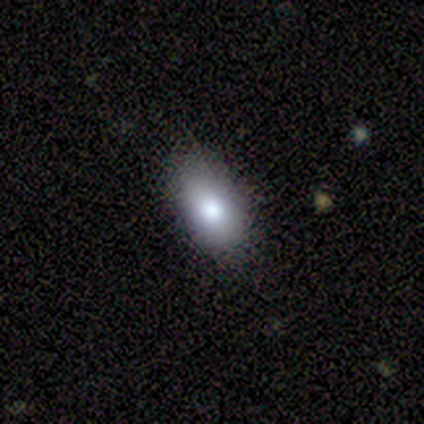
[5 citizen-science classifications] This is clearly a smooth galaxy (100%). How rounded: clearly in between (100%). Merging: clearly none (100%).